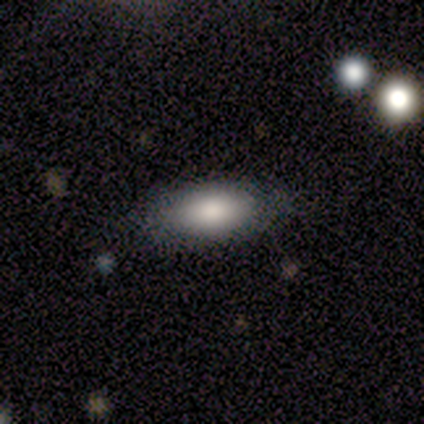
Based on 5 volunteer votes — This is clearly a smooth galaxy (100%). How rounded: clearly in between (100%). Merging: clearly none (80%).